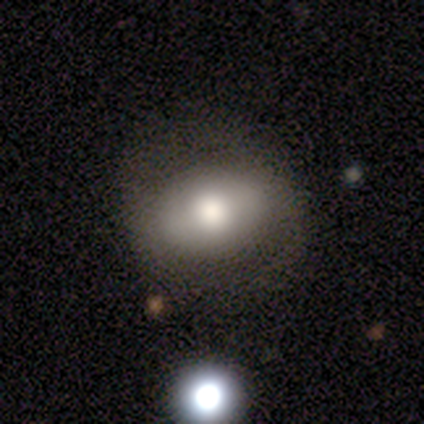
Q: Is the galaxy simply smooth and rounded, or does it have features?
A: smooth — 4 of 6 (67%).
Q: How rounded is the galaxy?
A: in between — 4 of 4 (100%).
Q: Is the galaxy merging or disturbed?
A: none — 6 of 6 (100%).